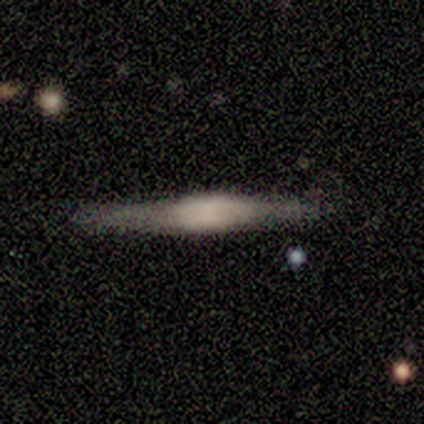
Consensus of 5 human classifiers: Smooth or featured? 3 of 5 (60%) said featured or disk. Edge-on disk? 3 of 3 (100%) said yes. Edge-on bulge? 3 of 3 (100%) said boxy. Merging? 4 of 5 (80%) said none.